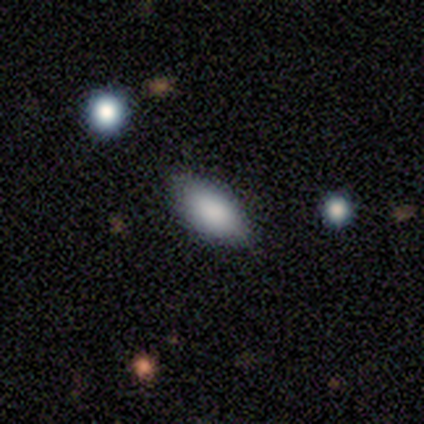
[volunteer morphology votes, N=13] type=smooth (85%); roundness=in between (100%); merging=none (73%).